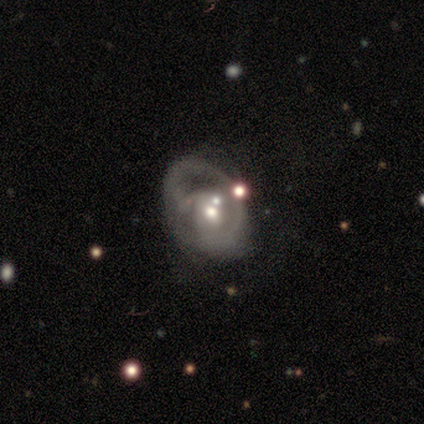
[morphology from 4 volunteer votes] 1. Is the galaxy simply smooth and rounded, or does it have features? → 100% featured or disk, 0% smooth, 0% star or artifact.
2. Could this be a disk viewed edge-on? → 100% no, 0% yes.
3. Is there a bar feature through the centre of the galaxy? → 75% no, 25% weak, 0% strong.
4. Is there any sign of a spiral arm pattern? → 75% yes, 25% no.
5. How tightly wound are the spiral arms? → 67% medium, 33% tight, 0% loose.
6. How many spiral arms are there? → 67% 2, 33% 1, 0% 3, 0% 4, 0% more than 4, 0% can't tell.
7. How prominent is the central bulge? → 75% moderate, 25% large, 0% dominant, 0% small, 0% none.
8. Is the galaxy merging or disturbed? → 50% major disturbance, 25% none, 25% merger, 0% minor disturbance.